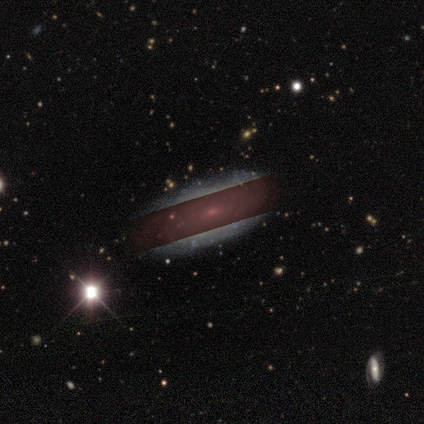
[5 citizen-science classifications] Smooth or featured? star or artifact (60%)